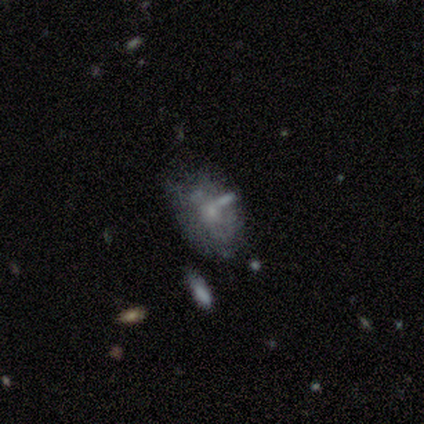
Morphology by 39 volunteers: This is possibly a featured or disk galaxy (46%). It is clearly not viewed edge-on (94%). Bar: clearly no (94%). Spiral arm pattern: possibly no (53%). Central bulge: possibly small (59%). Merging: marginally minor disturbance (40%).